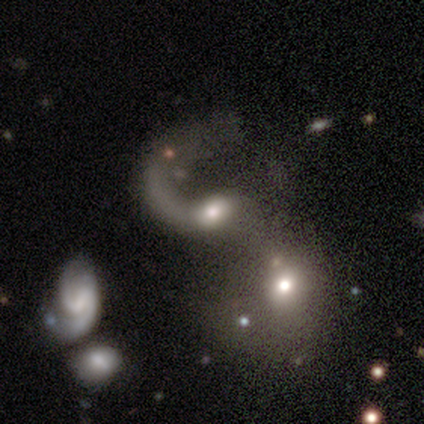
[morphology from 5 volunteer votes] Q: Smooth or featured?
A: featured or disk (80%); runner-up: smooth (20%)
Q: Edge-on disk?
A: no (75%); runner-up: yes (25%)
Q: Bar?
A: no (100%)
Q: Spiral arms?
A: no (67%); runner-up: yes (33%)
Q: Bulge size?
A: large (33%); tied with: small (33%); none (33%)
Q: Merging?
A: major disturbance (60%); runner-up: merger (40%)